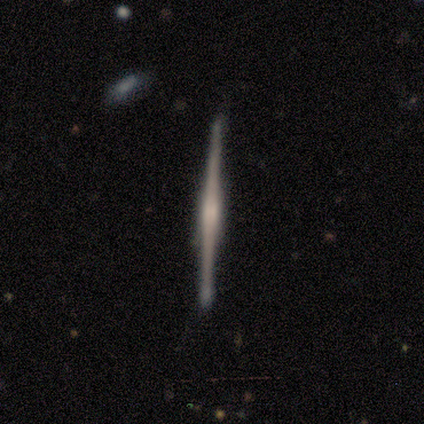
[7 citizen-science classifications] This appears to be a featured or disk galaxy (57%) viewed edge-on (100%) with a boxy central bulge (75%). Merging: none (86%).